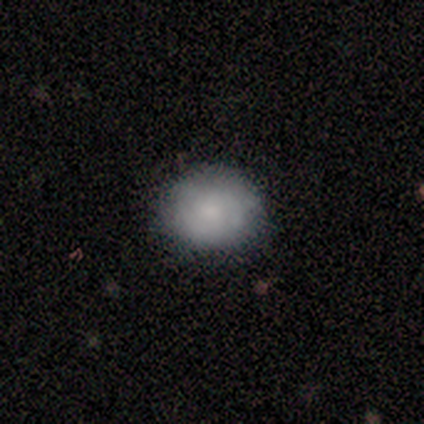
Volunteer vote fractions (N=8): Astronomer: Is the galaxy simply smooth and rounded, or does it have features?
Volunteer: smooth — 75%.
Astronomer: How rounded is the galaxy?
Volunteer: round — 50%, tied with in between at 50%.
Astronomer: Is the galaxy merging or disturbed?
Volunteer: none — 71%.